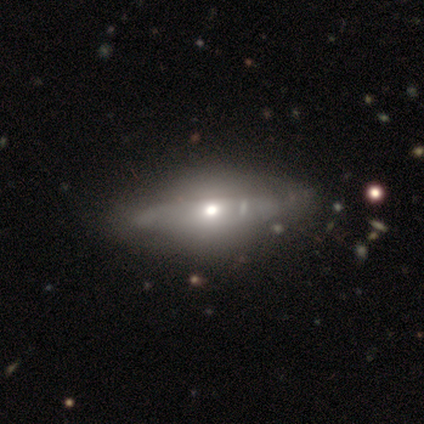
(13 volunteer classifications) Smooth or featured?
  - smooth: 46% * (tied)
  - featured or disk: 46% * (tied)
  - star or artifact: 8%
How rounded?
  - in between: 50% * (tied)
  - cigar-shaped: 50% * (tied)
  - round: 0%
Merging?
  - none: 83% *
  - minor disturbance: 17%
  - major disturbance: 0%
  - merger: 0%